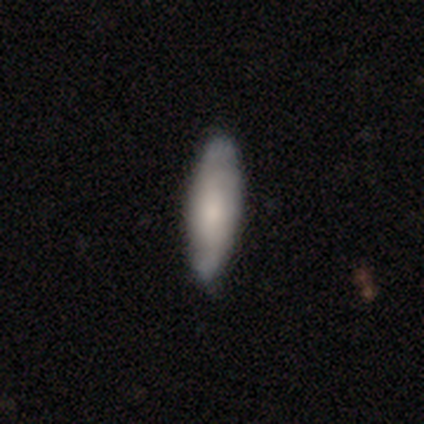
Q: Smooth or featured?
A: smooth (56%); runner-up: featured or disk (38%)
Q: How rounded?
A: cigar-shaped (55%); runner-up: in between (45%)
Q: Merging?
A: none (89%); runner-up: minor disturbance (11%)